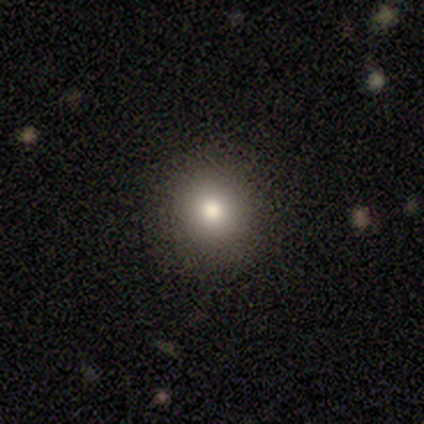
Smooth or featured? 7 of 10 (70%) said smooth. How rounded? 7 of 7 (100%) said round. Merging? 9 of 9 (100%) said none.